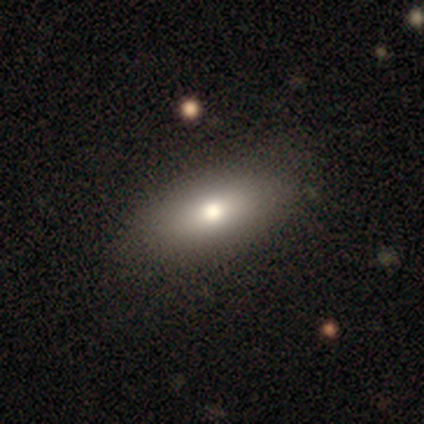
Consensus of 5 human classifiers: smooth 80%, featured or disk 20%, star or artifact 0%. Down the decision tree: how rounded — in between (100%); merging — none (80%).